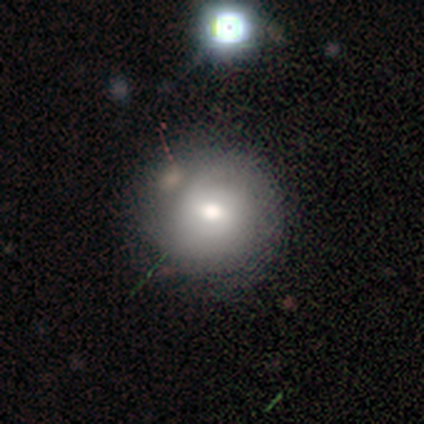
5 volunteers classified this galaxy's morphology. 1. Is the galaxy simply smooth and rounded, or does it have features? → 80% smooth, 20% star or artifact, 0% featured or disk.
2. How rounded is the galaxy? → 100% round, 0% in between, 0% cigar-shaped.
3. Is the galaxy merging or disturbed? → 50% minor disturbance, 25% none, 25% major disturbance, 0% merger.